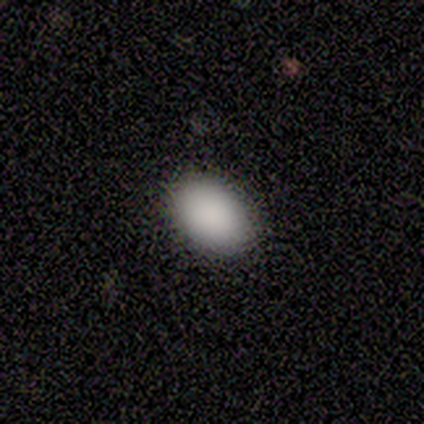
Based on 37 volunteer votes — Morphology: type=smooth (89%); roundness=in between (88%); merging=none (94%).